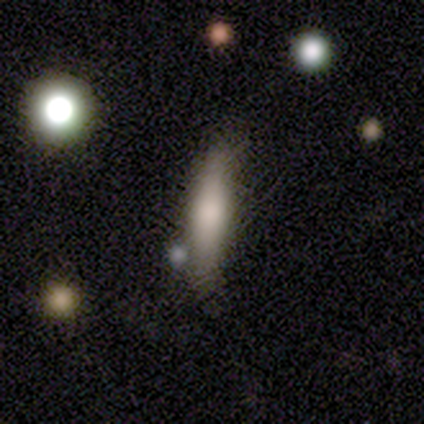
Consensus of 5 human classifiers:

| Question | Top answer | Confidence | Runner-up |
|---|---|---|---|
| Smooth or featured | smooth | 80% | featured or disk (20%) |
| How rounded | in between | 50% | tied: cigar-shaped (50%) |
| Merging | none | 60% | minor disturbance (40%) |